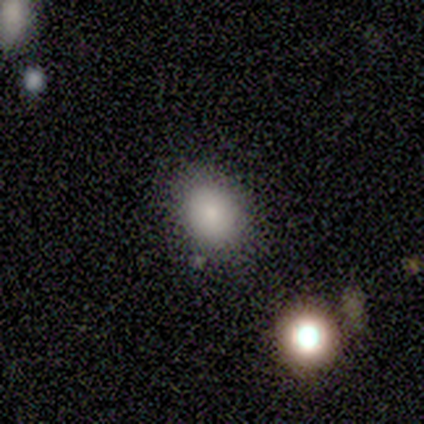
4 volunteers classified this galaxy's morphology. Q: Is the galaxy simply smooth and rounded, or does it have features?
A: smooth — 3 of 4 (75%).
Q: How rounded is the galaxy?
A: in between — 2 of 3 (67%).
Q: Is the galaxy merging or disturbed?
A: none — 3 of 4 (75%).